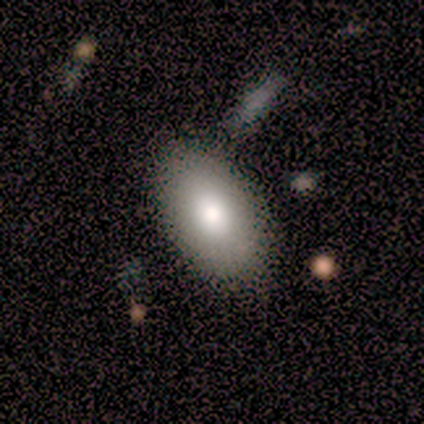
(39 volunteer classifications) smooth 77%, featured or disk 13%, star or artifact 10%. Down the decision tree: how rounded — in between (97%); merging — none (80%).